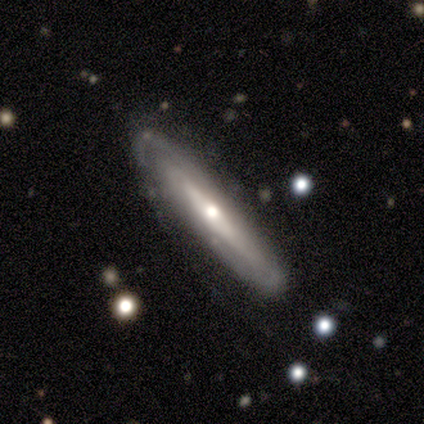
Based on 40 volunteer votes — Smooth or featured?
  - featured or disk: 72% *
  - smooth: 28%
  - star or artifact: 0%
Edge-on disk?
  - yes: 62% *
  - no: 38%
Edge-on bulge?
  - rounded: 89% *
  - boxy: 6%
  - none: 6%
Merging?
  - none: 65% *
  - minor disturbance: 30%
  - major disturbance: 5%
  - merger: 0%